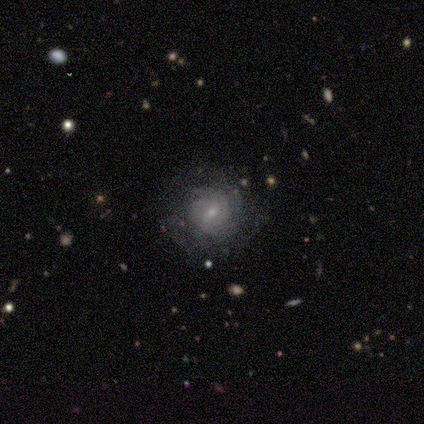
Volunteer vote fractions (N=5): smooth-or-featured: featured or disk: 60% | smooth: 40% | star or artifact: 0%
  disk-edge-on: no: 100% | yes: 0%
    bar: weak: 67% | strong: 33% | no: 0%
    has-spiral-arms: yes: 100% | no: 0%
      spiral-winding: tight: 67% | medium: 33% | loose: 0%
      spiral-arm-count: can't tell: 67% | 3: 33% | 1: 0% | 2: 0% | 4: 0% | more than 4: 0%
    bulge-size: small: 100% | dominant: 0% | large: 0% | moderate: 0% | none: 0%
  merging: none: 80% | merger: 20% | minor disturbance: 0% | major disturbance: 0%